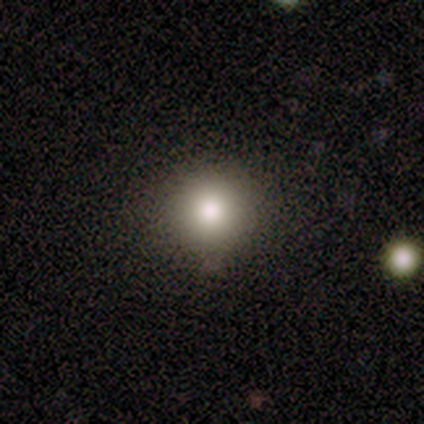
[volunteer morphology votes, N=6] Smooth or featured: smooth — 50% (featured or disk — 33%)
How rounded: round — 100%
Merging: none — 80% (minor disturbance — 20%)